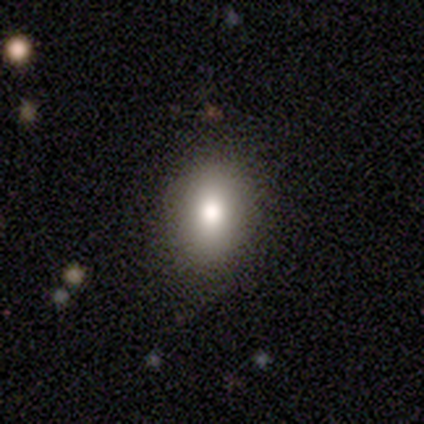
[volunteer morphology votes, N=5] smooth-or-featured: smooth: 100% | featured or disk: 0% | star or artifact: 0%
  how-rounded: in between: 60% | round: 40% | cigar-shaped: 0%
  merging: none: 100% | minor disturbance: 0% | major disturbance: 0% | merger: 0%